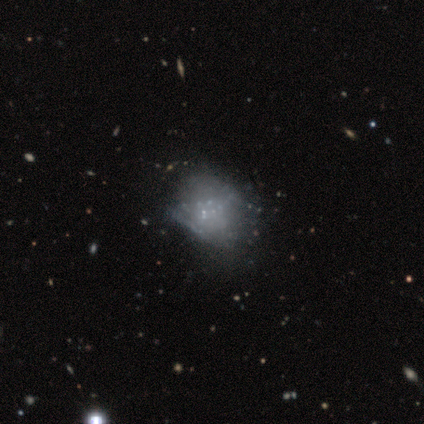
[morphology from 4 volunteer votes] smooth_or_featured: featured or disk (p=0.75) [alt: star or artifact p=0.25]
disk_edge_on: no (p=1.00)
bar: no (p=1.00)
has_spiral_arms: no (p=1.00)
bulge_size: none (p=1.00)
merging: minor disturbance (p=0.67) [alt: merger p=0.33]